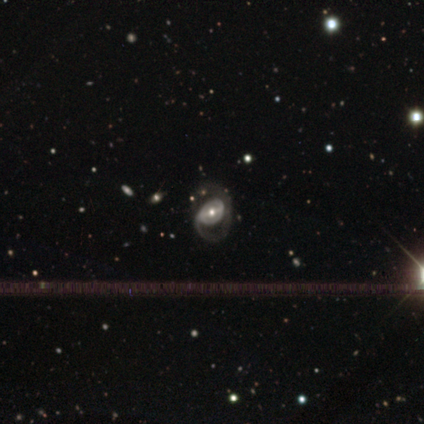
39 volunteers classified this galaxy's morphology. Smooth or featured? featured or disk (72%)
Edge-on disk? no (93%)
Bar? strong (54%)
Spiral arms? yes (73%)
Spiral winding? medium (47%)
Spiral arm count? 2 (58%)
Bulge size? moderate (69%)
Merging? major disturbance (53%)